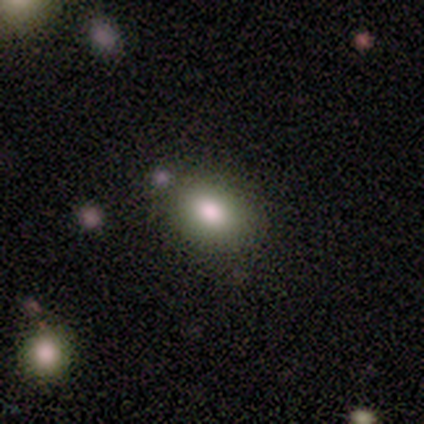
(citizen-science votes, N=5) Smooth or featured?
  - smooth: 100% *
  - featured or disk: 0%
  - star or artifact: 0%
How rounded?
  - in between: 80% *
  - round: 20%
  - cigar-shaped: 0%
Merging?
  - none: 60% *
  - minor disturbance: 20%
  - major disturbance: 20%
  - merger: 0%